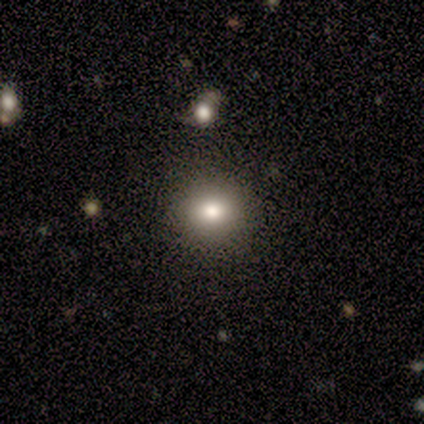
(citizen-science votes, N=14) Overall: smooth (93%). How rounded: round (85%). Merging: none (85%).